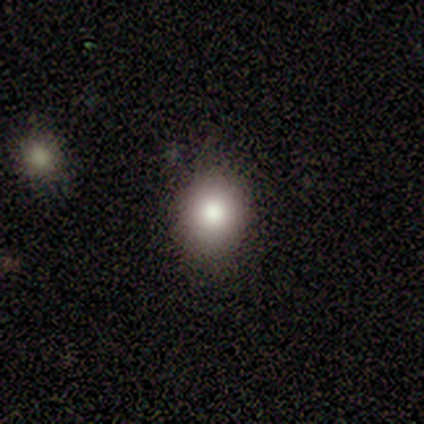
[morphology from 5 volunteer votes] This appears to be a smooth galaxy with no disk features (60%) that is round (100%). Merging: none (100%).